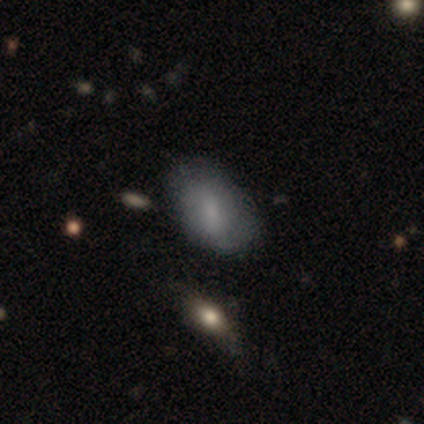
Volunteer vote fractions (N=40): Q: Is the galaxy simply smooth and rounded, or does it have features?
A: smooth — 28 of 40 (70%).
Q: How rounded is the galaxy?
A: in between — 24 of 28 (86%).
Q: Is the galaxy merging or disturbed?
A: none — 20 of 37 (54%).